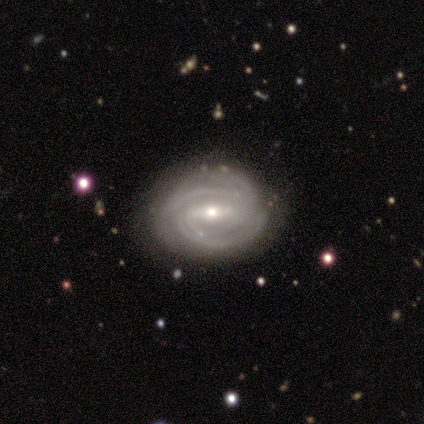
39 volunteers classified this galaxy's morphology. This appears to be a featured or disk galaxy (85%) with a strong bar (48%, tied with weak), 2 (38%) tight (59%) spiral arms (97%) and a small central bulge (58%). Merging: none (68%).